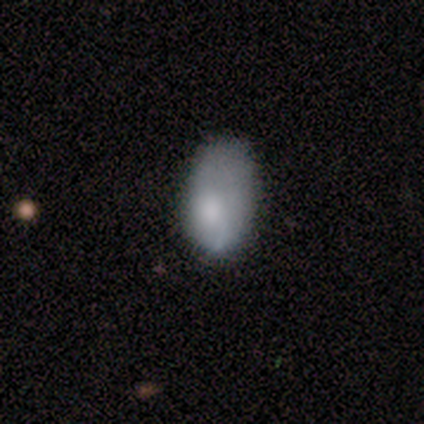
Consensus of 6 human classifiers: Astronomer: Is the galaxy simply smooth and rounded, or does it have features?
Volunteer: smooth — 83%.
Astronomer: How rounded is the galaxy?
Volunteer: in between — 100%.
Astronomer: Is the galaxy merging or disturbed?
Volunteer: minor disturbance — 67%.